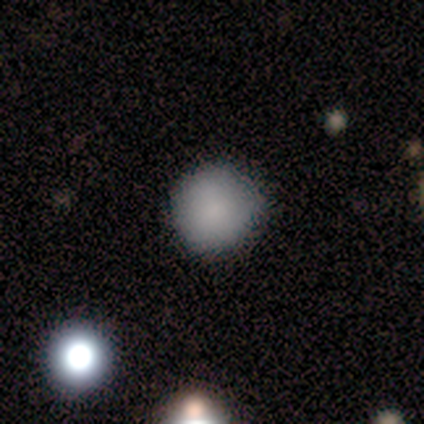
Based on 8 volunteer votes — smooth_or_featured: smooth (p=1.00)
how_rounded: round (p=1.00)
merging: none (p=0.88) [alt: minor disturbance p=0.12]